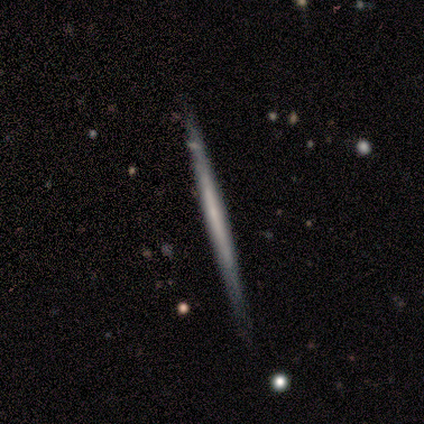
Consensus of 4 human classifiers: Smooth or featured? featured or disk (75%)
Edge-on disk? yes (100%)
Edge-on bulge? none (67%)
Merging? none (100%)